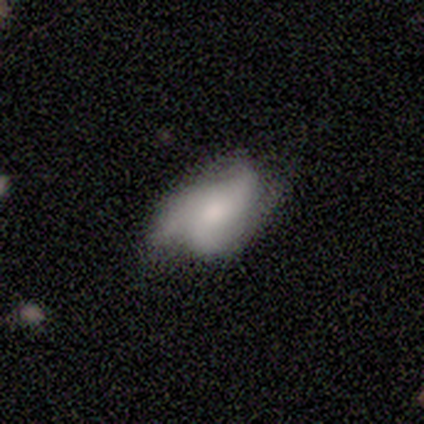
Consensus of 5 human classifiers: smooth-or-featured: featured or disk: 100% | smooth: 0% | star or artifact: 0%
  disk-edge-on: no: 100% | yes: 0%
    bar: no: 80% | strong: 20% | weak: 0%
    has-spiral-arms: yes: 60% | no: 40%
      spiral-winding: tight: 67% | medium: 33% | loose: 0%
      spiral-arm-count: 2: 67% | 3: 33% | 1: 0% | 4: 0% | more than 4: 0% | can't tell: 0%
    bulge-size: moderate: 40% (tied) | small: 40% (tied) | large: 20% | dominant: 0% | none: 0%
  merging: none: 40% (tied) | minor disturbance: 40% (tied) | major disturbance: 20% | merger: 0%